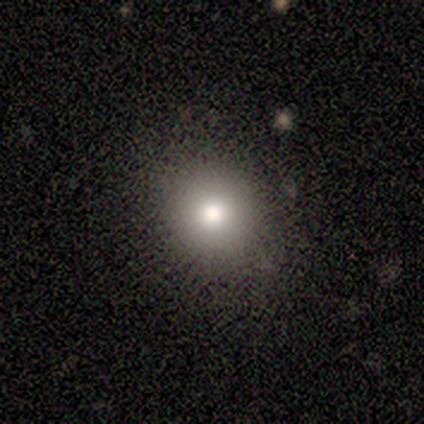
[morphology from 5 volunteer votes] This appears to be a smooth galaxy with no disk features (80%) that is round (100%). Merging: none (80%).